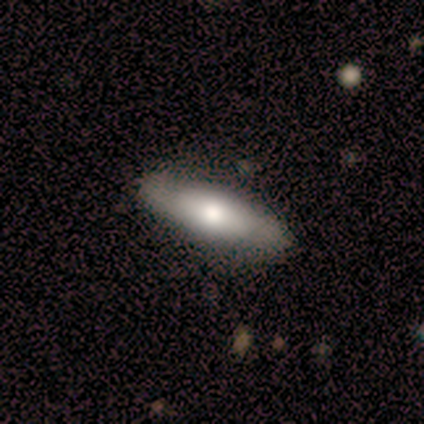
A featured or disk galaxy (60%) with a strong bar (50%, tied with no), 2 (100%) tight (50%, tied with medium) spiral arms (100%) and a large central bulge (50%, tied with moderate). Merging: none (60%).